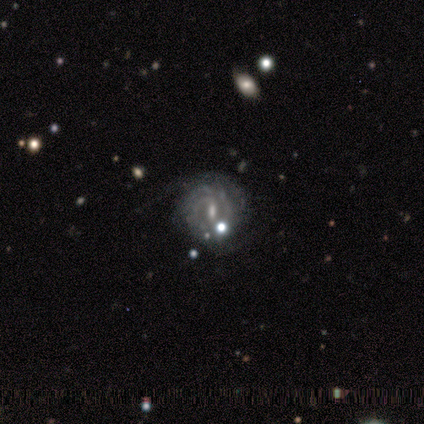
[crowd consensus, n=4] Volunteers were most divided on "bar" (2-way tie): weak: 50%, no: 50%, strong: 0%. More confident: smooth or featured — featured or disk (100%); edge-on disk — no (100%); spiral arms — yes (100%); spiral winding — tight (100%); merging — none (100%); spiral arm count — 2 (75%); bulge size — small (75%).